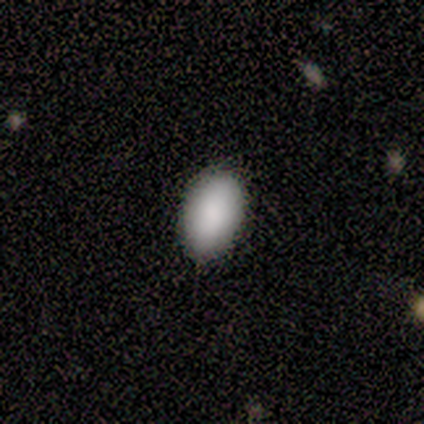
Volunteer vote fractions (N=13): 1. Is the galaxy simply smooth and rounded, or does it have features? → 100% smooth, 0% featured or disk, 0% star or artifact.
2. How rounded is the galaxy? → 100% in between, 0% round, 0% cigar-shaped.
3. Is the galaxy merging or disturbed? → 69% none, 31% minor disturbance, 0% major disturbance, 0% merger.